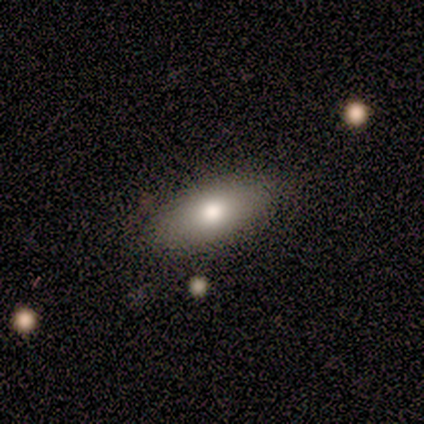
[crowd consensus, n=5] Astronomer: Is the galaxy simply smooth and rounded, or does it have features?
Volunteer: smooth — 80%.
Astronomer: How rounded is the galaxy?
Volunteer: in between — 100%.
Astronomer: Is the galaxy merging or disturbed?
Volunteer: none — 100%.